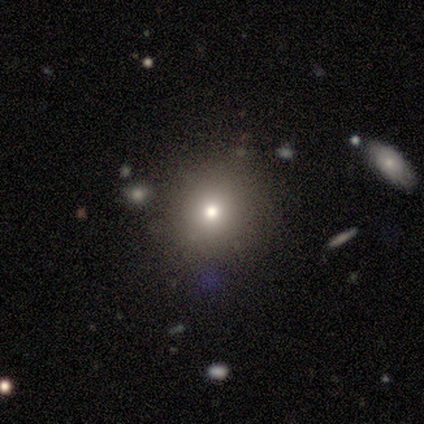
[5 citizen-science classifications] Smooth or featured?
  - smooth: 60% *
  - star or artifact: 40%
  - featured or disk: 0%
How rounded?
  - round: 100% *
  - in between: 0%
  - cigar-shaped: 0%
Merging?
  - none: 100% *
  - minor disturbance: 0%
  - major disturbance: 0%
  - merger: 0%